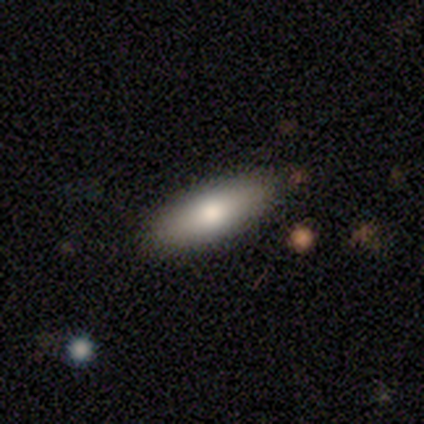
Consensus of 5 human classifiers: Overall: smooth (100%). How rounded: cigar-shaped (80%). Merging: none (100%).